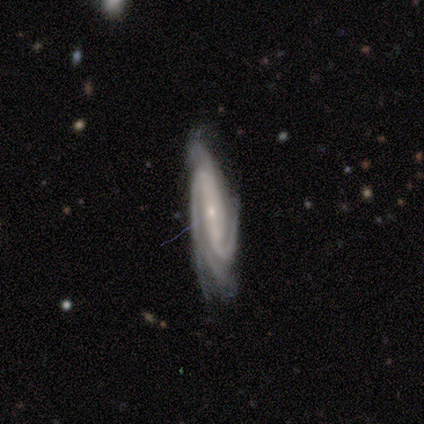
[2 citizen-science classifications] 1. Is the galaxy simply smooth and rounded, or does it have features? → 100% featured or disk, 0% smooth, 0% star or artifact.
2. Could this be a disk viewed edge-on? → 100% no, 0% yes.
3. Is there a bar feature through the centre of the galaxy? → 100% no, 0% strong, 0% weak.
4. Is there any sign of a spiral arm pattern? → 100% yes, 0% no.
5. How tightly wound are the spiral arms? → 100% tight, 0% medium, 0% loose.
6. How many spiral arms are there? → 50% 3 (tied), 50% 4 (tied), 0% 1, 0% 2, 0% more than 4, 0% can't tell.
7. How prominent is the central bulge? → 100% moderate, 0% dominant, 0% large, 0% small, 0% none.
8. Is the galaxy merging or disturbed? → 50% none (tied), 50% minor disturbance (tied), 0% major disturbance, 0% merger.